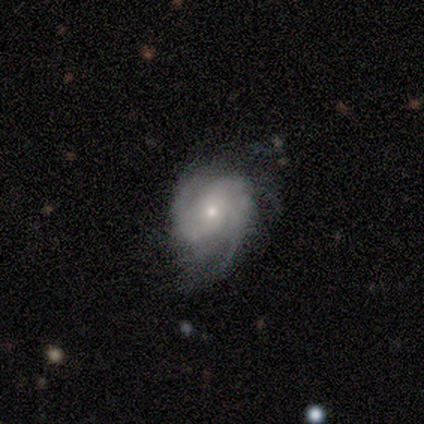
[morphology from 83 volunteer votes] Volunteers were most divided on "bulge size": moderate: 51%, small: 44%, large: 3%, none: 1%, dominant: 0%. Remaining: edge-on disk — no (97%); spiral arms — yes (96%); smooth or featured — featured or disk (89%); bar — no (81%); merging — none (62%); spiral winding — tight (52%); spiral arm count — 2 (43%).